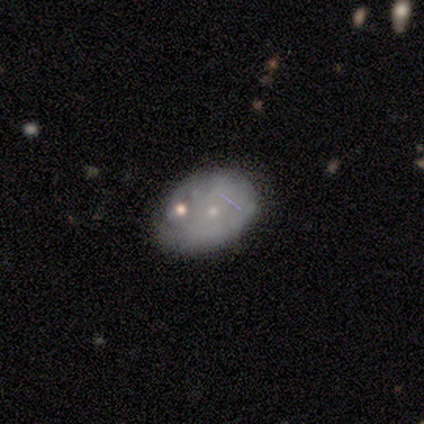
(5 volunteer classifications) This appears to be a featured or disk galaxy (60%) with no bar (100%), no spiral arms (100%) and a small central bulge (67%). Merging: none (40%, tied with minor disturbance).